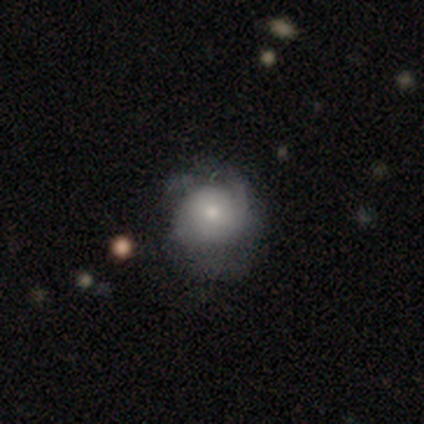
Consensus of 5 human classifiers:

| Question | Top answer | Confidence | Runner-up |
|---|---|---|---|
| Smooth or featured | featured or disk | 100% | — |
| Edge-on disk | no | 100% | — |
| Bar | no | 100% | — |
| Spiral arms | yes | 60% | no (40%) |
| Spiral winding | tight | 67% | medium (33%) |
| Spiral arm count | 1 | 33% | tied: 2 (33%), can't tell (33%) |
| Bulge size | small | 60% | moderate (40%) |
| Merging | none | 40% | tied: major disturbance (40%) |